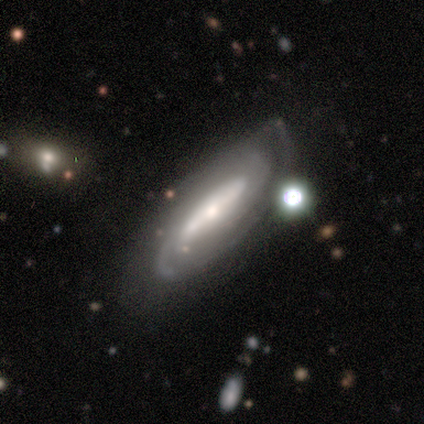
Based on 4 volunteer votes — Smooth or featured? featured or disk (75%)
Edge-on disk? no (100%)
Bar? strong (67%)
Spiral arms? yes (67%)
Spiral winding? tight (50%, tied with medium)
Spiral arm count? 2 (50%, tied with can't tell)
Bulge size? moderate (67%)
Merging? none (75%)